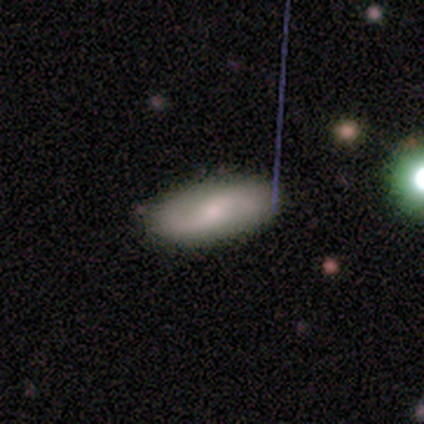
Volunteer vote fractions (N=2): featured or disk 100%, smooth 0%, star or artifact 0%. Down the decision tree: edge-on disk — no (100%); bar — no (100%); spiral arms — yes (100%); spiral arm count — 2 (100%); spiral winding — loose (100%); bulge size — small (100%); merging — none (100%).